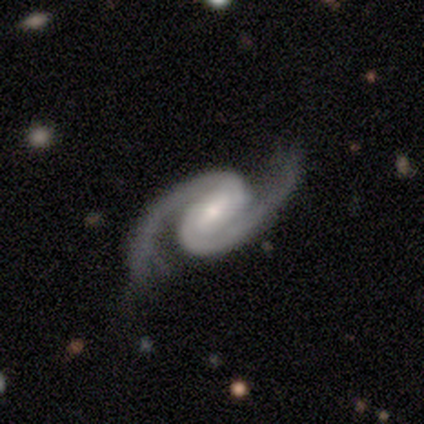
A featured or disk galaxy (75%) with a strong bar (33%, tied with weak and no), 2 (100%) medium (67%) spiral arms (100%) and a small central bulge (67%).

Vote fractions:
- Smooth or featured? featured or disk: 75% / smooth: 25% / star or artifact: 0%
- Edge-on disk? no: 100% / yes: 0%
- Bar? strong: 33% (tied) / weak: 33% (tied) / no: 33% (tied)
- Spiral arms? yes: 100% / no: 0%
- Spiral winding? medium: 67% / tight: 33% / loose: 0%
- Spiral arm count? 2: 100% / 1: 0% / 3: 0% / 4: 0% / more than 4: 0% / can't tell: 0%
- Bulge size? small: 67% / moderate: 33% / dominant: 0% / large: 0% / none: 0%
- Merging? none: 75% / merger: 25% / minor disturbance: 0% / major disturbance: 0%